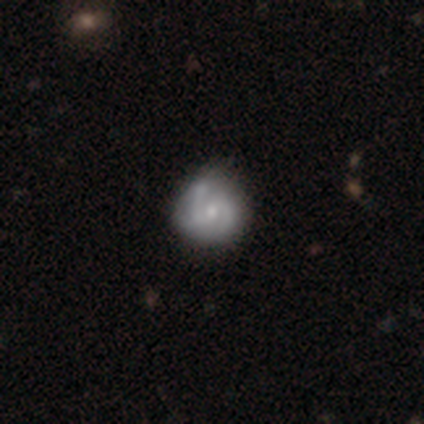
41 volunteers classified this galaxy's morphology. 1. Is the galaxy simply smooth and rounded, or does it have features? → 78% featured or disk, 15% smooth, 7% star or artifact.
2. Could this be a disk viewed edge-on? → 100% no, 0% yes.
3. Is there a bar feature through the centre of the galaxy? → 53% weak, 41% no, 6% strong.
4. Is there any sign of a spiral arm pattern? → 88% yes, 12% no.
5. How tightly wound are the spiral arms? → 43% medium, 39% tight, 18% loose.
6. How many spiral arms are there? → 89% 2, 4% 3, 4% 4, 4% can't tell, 0% 1, 0% more than 4.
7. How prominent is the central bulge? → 47% small, 41% moderate, 9% none, 3% large, 0% dominant.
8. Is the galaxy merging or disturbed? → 55% none, 34% minor disturbance, 5% major disturbance, 5% merger.